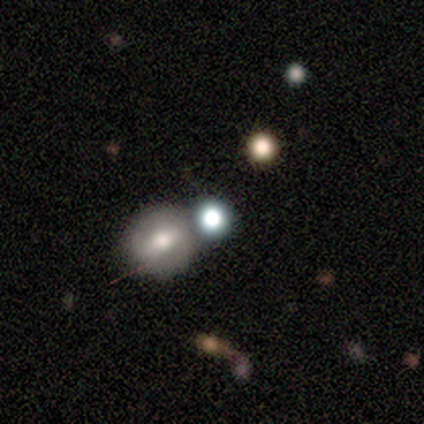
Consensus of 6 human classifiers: This appears to be a smooth galaxy with no disk features (33%, tied with featured or disk and star or artifact) that is round (100%). Merging: none (75%).